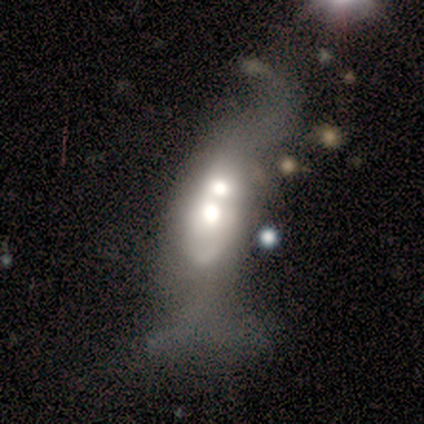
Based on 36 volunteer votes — This is possibly a featured or disk galaxy (53%). It is clearly not viewed edge-on (95%). Bar: clearly no (89%). Spiral arm pattern: clearly no (89%). Central bulge: possibly moderate (50%). Merging: likely merger (77%).